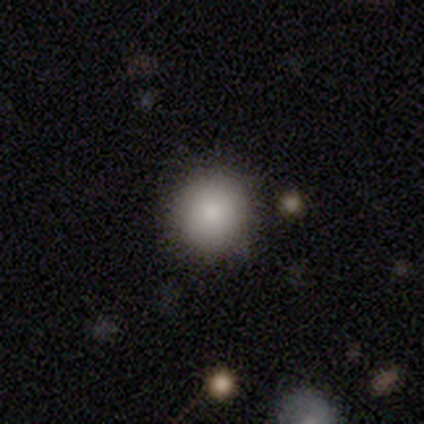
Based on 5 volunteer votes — Smooth or featured? smooth (80%)
How rounded? round (100%)
Merging? none (100%)